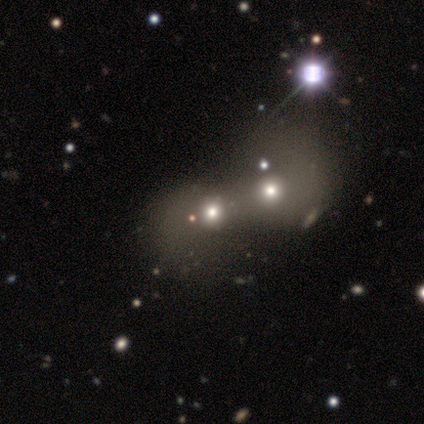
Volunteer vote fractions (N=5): Overall: smooth (80%). How rounded: round (100%). Merging: merger (60%; none 40%).